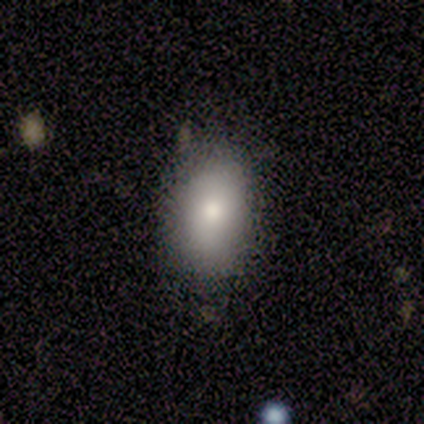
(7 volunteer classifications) Volunteers were most divided on "merging": none: 71%, minor disturbance: 29%, major disturbance: 0%, merger: 0%. More confident: how rounded — in between (100%); smooth or featured — smooth (86%).